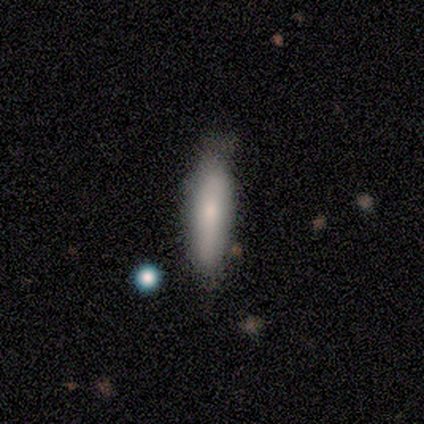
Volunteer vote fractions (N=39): Smooth or featured? smooth (67%)
How rounded? cigar-shaped (69%)
Merging? none (49%)